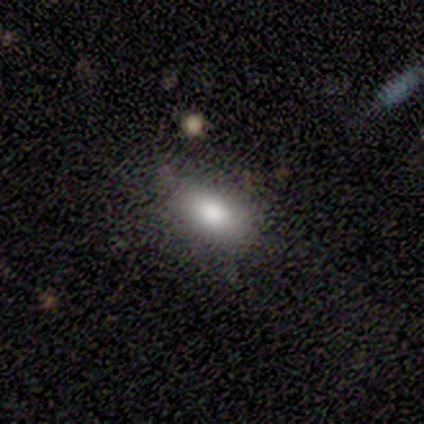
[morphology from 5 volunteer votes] Overall: smooth (80%). How rounded: in between (100%). Merging: none (60%; minor disturbance 40%).